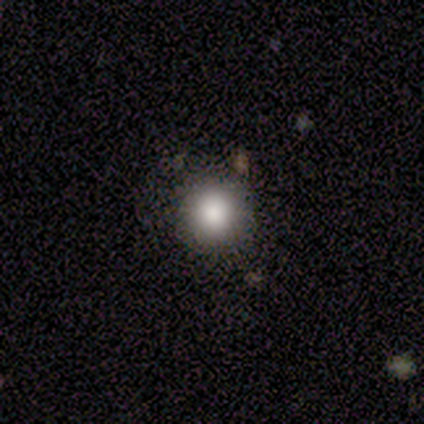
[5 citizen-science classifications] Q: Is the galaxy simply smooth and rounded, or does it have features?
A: smooth — 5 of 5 (100%).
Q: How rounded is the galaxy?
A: round — 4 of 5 (80%).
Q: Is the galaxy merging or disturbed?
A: none — 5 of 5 (100%).